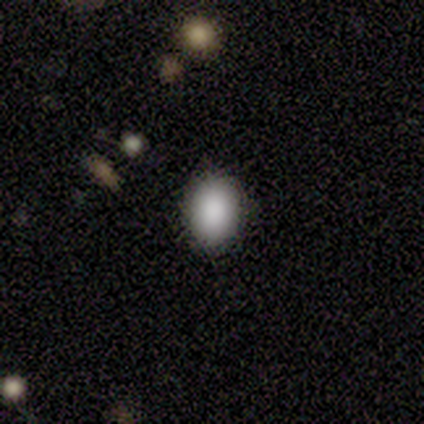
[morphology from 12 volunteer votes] Smooth or featured? 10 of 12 (83%) said smooth. How rounded? 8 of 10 (80%) said in between. Merging? 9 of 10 (90%) said none.